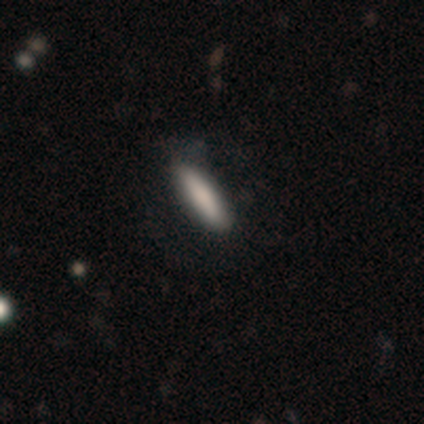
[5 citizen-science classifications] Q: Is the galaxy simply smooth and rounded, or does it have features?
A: smooth — 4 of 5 (80%).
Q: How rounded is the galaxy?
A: cigar-shaped — 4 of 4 (100%).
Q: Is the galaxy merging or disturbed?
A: minor disturbance — 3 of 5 (60%).